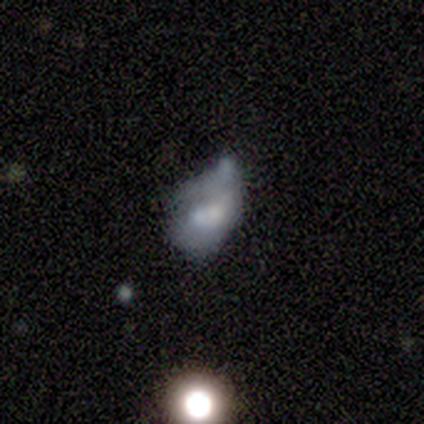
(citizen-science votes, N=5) Smooth or featured? 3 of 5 (60%) said featured or disk. Edge-on disk? 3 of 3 (100%) said no. Bar? 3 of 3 (100%) said no. Spiral arms? 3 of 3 (100%) said no. Bulge size? 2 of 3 (67%) said moderate. Merging? 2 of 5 (40%) said none.